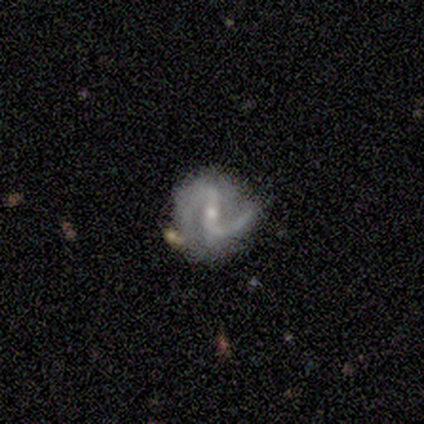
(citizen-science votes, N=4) Smooth or featured?
  - featured or disk: 100% *
  - smooth: 0%
  - star or artifact: 0%
Edge-on disk?
  - no: 100% *
  - yes: 0%
Bar?
  - weak: 50% *
  - strong: 25%
  - no: 25%
Spiral arms?
  - yes: 75% *
  - no: 25%
Spiral winding?
  - medium: 100% *
  - tight: 0%
  - loose: 0%
Spiral arm count?
  - 2: 100% *
  - 1: 0%
  - 3: 0%
  - 4: 0%
  - more than 4: 0%
  - can't tell: 0%
Bulge size?
  - small: 75% *
  - moderate: 25%
  - dominant: 0%
  - large: 0%
  - none: 0%
Merging?
  - minor disturbance: 50% *
  - major disturbance: 25%
  - merger: 25%
  - none: 0%